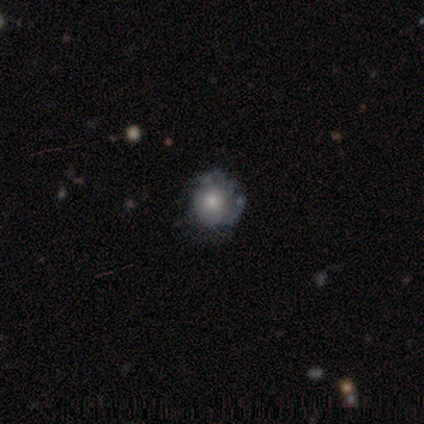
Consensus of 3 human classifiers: Smooth or featured?
  - smooth: 67% *
  - featured or disk: 33%
  - star or artifact: 0%
How rounded?
  - round: 100% *
  - in between: 0%
  - cigar-shaped: 0%
Merging?
  - none: 100% *
  - minor disturbance: 0%
  - major disturbance: 0%
  - merger: 0%